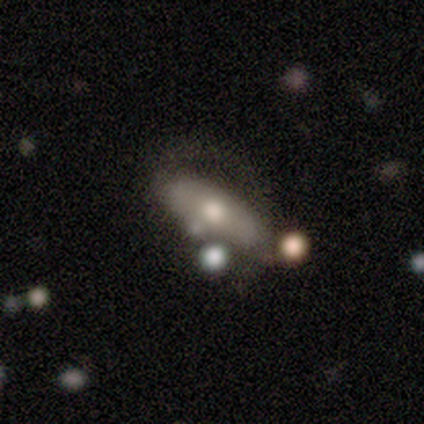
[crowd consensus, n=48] This appears to be a featured or disk galaxy (54%) with no bar (90%), no spiral arms (80%) and a moderate central bulge (55%). Merging: none (49%).